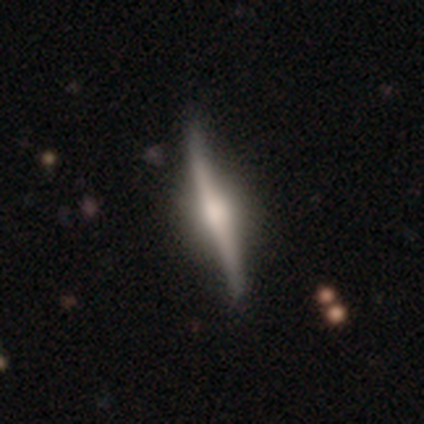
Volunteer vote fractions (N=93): Volunteers were most divided on "merging": none: 76%, minor disturbance: 21%, major disturbance: 2%, merger: 1%. More confident: edge-on disk — yes (93%); edge-on bulge — rounded (85%); smooth or featured — featured or disk (75%).